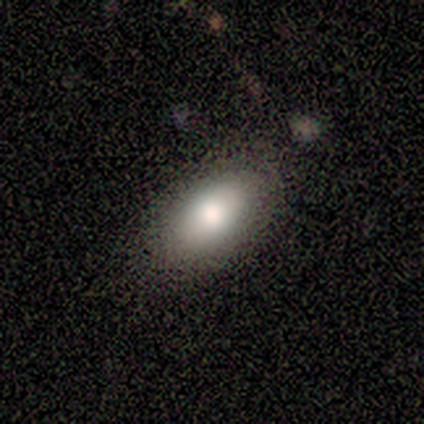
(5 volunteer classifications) smooth_or_featured: smooth (p=1.00)
how_rounded: in between (p=1.00)
merging: none (p=1.00)